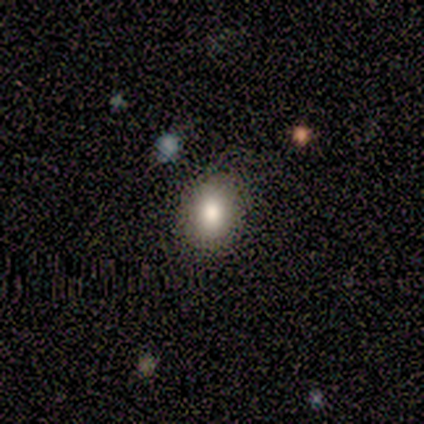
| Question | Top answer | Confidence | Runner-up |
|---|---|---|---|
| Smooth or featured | smooth | 60% | star or artifact (40%) |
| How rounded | in between | 67% | round (33%) |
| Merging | none | 100% | — |